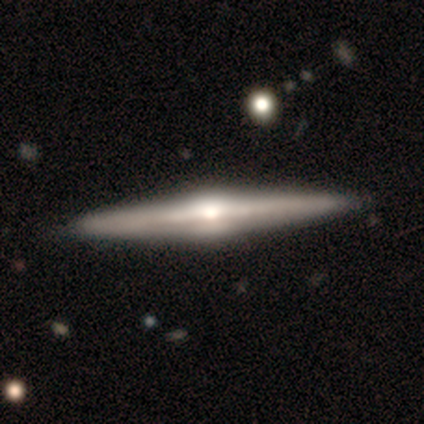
featured or disk 87%, smooth 11%, star or artifact 3%. Down the decision tree: edge-on disk — yes (97%); edge-on bulge — rounded (91%); merging — none (59%).